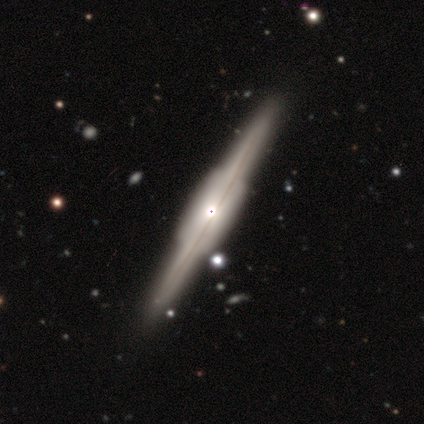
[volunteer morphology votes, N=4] Q: Smooth or featured?
A: featured or disk (100%)
Q: Edge-on disk?
A: yes (100%)
Q: Edge-on bulge?
A: boxy (50%); runner-up: none (25%)
Q: Merging?
A: none (75%); runner-up: merger (25%)